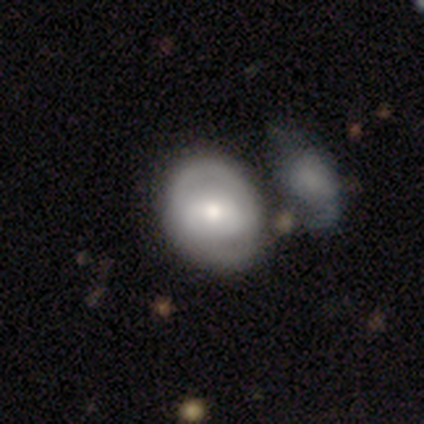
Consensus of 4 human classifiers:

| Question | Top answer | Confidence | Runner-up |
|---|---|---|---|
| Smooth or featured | smooth | 75% | featured or disk (25%) |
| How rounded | round | 100% | — |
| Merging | none | 50% | minor disturbance (25%) |